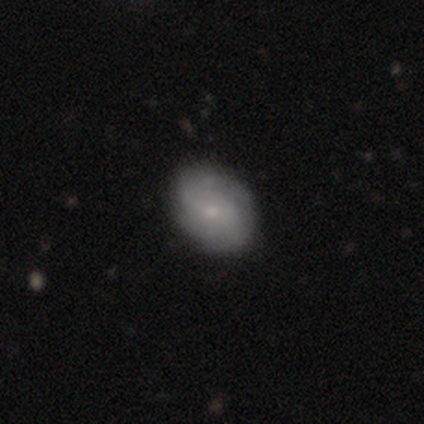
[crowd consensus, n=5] A smooth galaxy with no disk features (40%, tied with featured or disk) that is round (50%, tied with in between). Merging: none (50%).